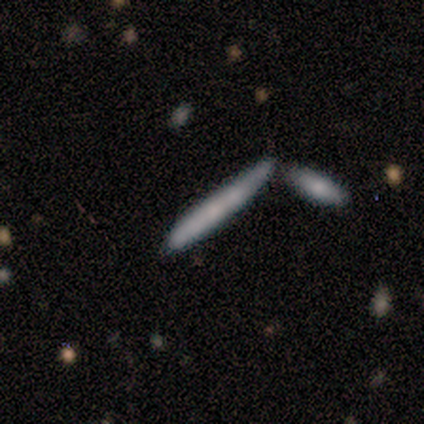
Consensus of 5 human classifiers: Overall: smooth (60%; featured or disk 40%). How rounded: cigar-shaped (100%). Merging: minor disturbance (40%; none 20%).